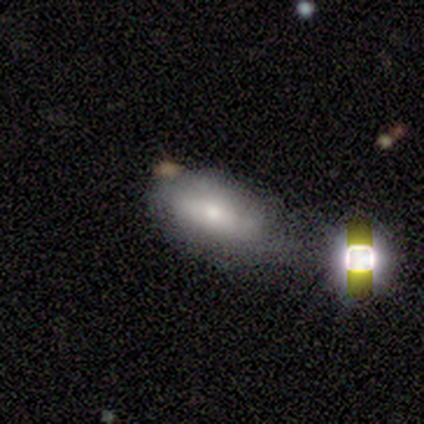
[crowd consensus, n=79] This is likely a smooth galaxy (66%). How rounded: clearly in between (98%). Merging: marginally none (24%).